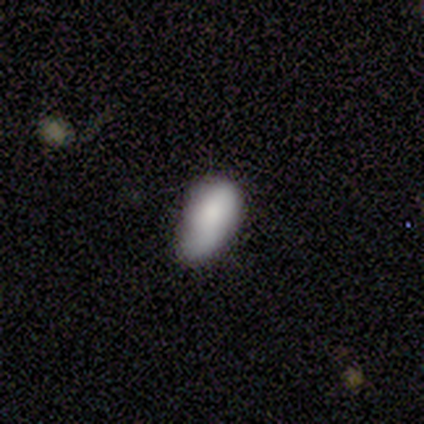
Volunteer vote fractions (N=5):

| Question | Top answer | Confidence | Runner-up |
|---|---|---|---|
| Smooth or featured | smooth | 100% | — |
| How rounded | in between | 100% | — |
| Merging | none | 60% | minor disturbance (40%) |